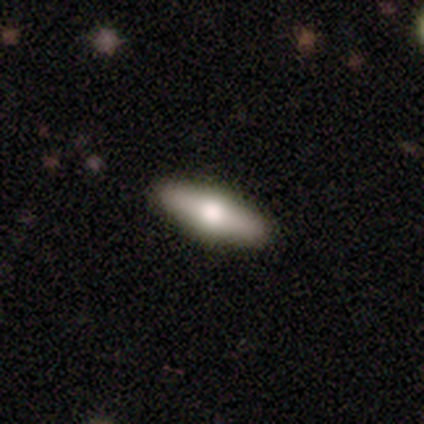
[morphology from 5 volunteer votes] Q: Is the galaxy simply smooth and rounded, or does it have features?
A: smooth — 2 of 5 (40%, tied with featured or disk).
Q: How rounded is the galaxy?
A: in between — 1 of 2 (50%, tied with cigar-shaped).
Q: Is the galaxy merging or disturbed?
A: none — 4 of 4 (100%).